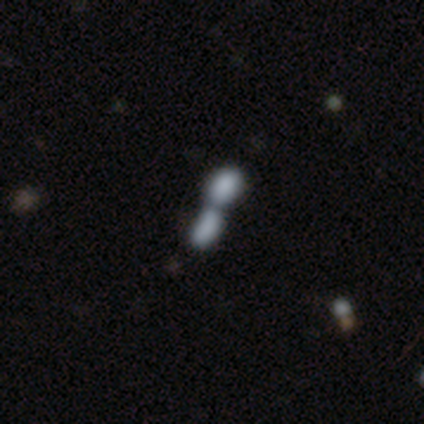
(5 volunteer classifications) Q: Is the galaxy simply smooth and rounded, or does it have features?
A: smooth — 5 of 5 (100%).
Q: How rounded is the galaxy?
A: in between — 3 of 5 (60%).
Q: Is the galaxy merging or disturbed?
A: merger — 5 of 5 (100%).